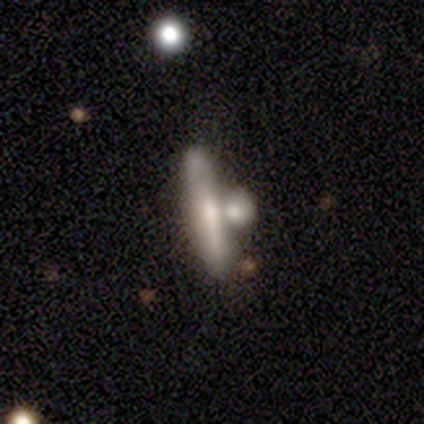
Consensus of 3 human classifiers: Smooth or featured? 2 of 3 (67%) said smooth. How rounded? 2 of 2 (100%) said cigar-shaped. Merging? 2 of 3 (67%) said none.